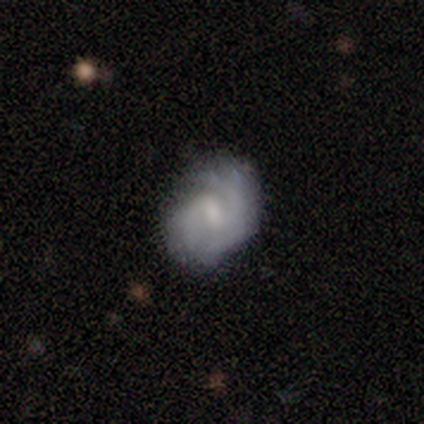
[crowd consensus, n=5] Smooth or featured: featured or disk — 80% (smooth — 20%)
Edge-on disk: no — 100%
Bar: weak — 50% (strong — 25%)
Spiral arms: yes — 100%
Spiral winding: tight — 50% (medium — 25%)
Spiral arm count: 2 — 50% (1 — 25%)
Bulge size: moderate — 50% (tied with small — 50%)
Merging: none — 40% (tied with minor disturbance — 40%)